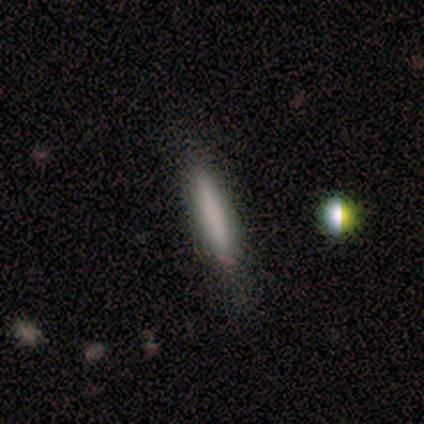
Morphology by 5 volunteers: smooth-or-featured: smooth: 80% | featured or disk: 20% | star or artifact: 0%
  how-rounded: cigar-shaped: 100% | round: 0% | in between: 0%
  merging: none: 100% | minor disturbance: 0% | major disturbance: 0% | merger: 0%